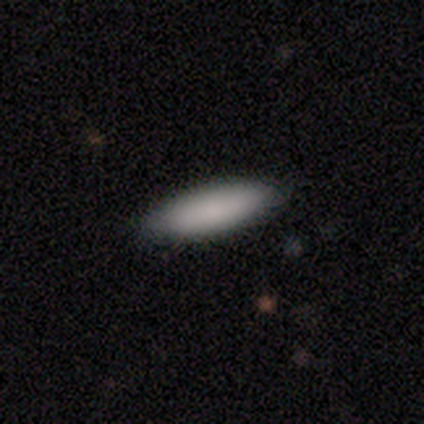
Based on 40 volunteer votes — Q: Smooth or featured?
A: smooth (90%); runner-up: featured or disk (5%)
Q: How rounded?
A: cigar-shaped (61%); runner-up: in between (39%)
Q: Merging?
A: none (92%); runner-up: minor disturbance (5%)